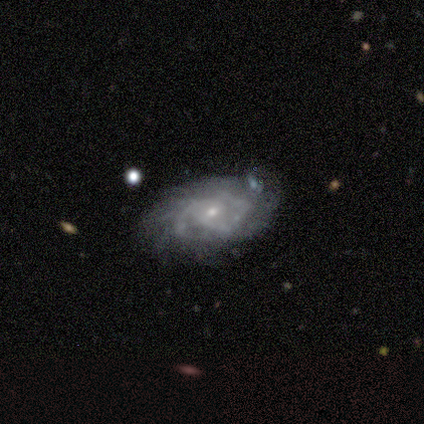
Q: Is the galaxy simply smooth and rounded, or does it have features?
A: featured or disk — 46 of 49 (94%).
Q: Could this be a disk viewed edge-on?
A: no — 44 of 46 (96%).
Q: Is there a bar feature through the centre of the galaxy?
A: no — 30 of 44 (68%).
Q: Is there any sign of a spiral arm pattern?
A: yes — 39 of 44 (89%).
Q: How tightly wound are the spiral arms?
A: tight — 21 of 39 (54%).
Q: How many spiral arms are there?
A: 2 — 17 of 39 (44%).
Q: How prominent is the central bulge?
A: small — 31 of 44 (70%).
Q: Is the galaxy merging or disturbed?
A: none — 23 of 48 (48%).